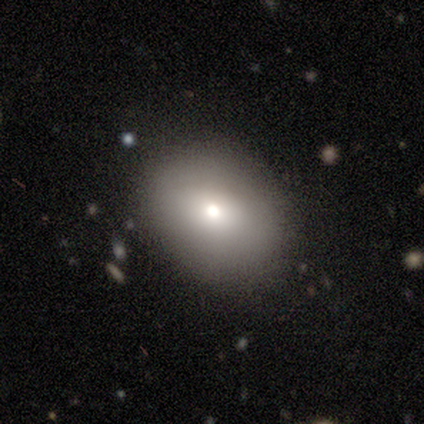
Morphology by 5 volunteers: Smooth or featured? smooth (60%)
How rounded? in between (67%)
Merging? none (100%)